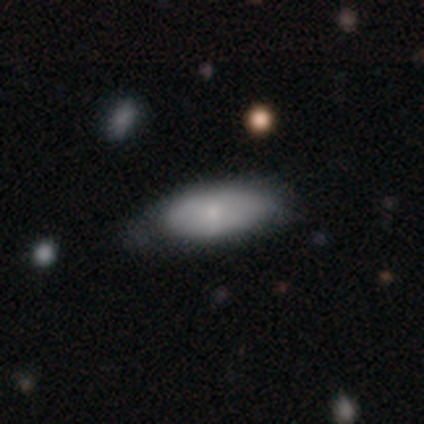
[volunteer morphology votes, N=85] Q: Smooth or featured?
A: smooth (75%); runner-up: featured or disk (21%)
Q: How rounded?
A: in between (89%); runner-up: cigar-shaped (11%)
Q: Merging?
A: none (52%); runner-up: minor disturbance (41%)